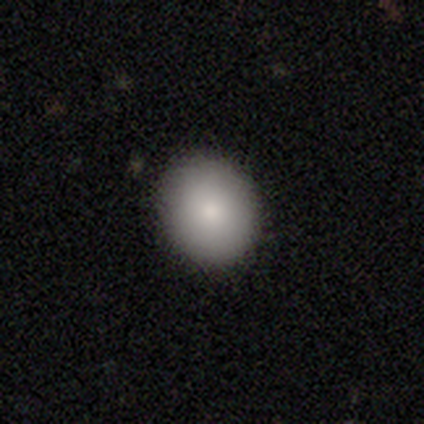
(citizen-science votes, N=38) Smooth or featured?
  - smooth: 82% *
  - featured or disk: 13%
  - star or artifact: 5%
How rounded?
  - in between: 55% *
  - round: 45%
  - cigar-shaped: 0%
Merging?
  - none: 61% *
  - minor disturbance: 3%
  - major disturbance: 0%
  - merger: 0%